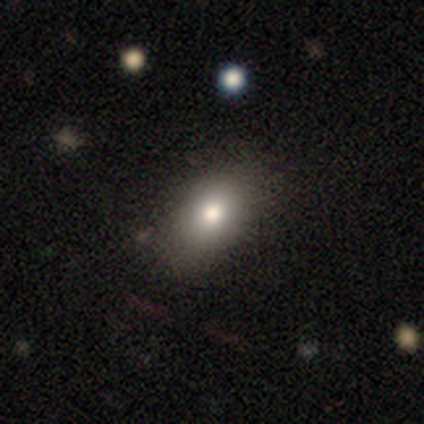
Morphology: type=smooth (72%); roundness=in between (86%); merging=none (61%).